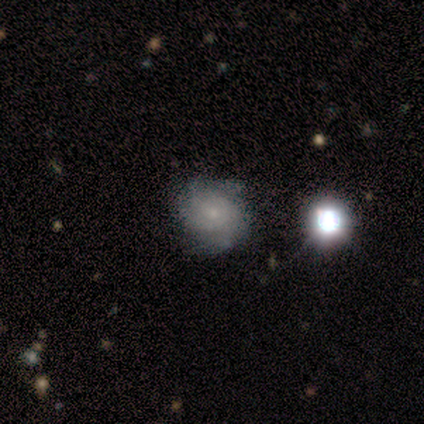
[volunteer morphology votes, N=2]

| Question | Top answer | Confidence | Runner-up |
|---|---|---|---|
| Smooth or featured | featured or disk | 100% | — |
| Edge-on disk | no | 100% | — |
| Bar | weak | 50% | tied: no (50%) |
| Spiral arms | yes | 100% | — |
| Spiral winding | tight | 100% | — |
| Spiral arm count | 2 | 50% | tied: can't tell (50%) |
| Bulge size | small | 50% | tied: none (50%) |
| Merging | none | 50% | tied: major disturbance (50%) |